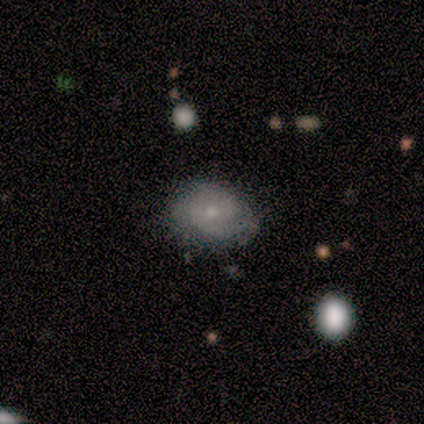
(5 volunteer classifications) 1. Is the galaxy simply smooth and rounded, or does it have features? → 80% smooth, 20% featured or disk, 0% star or artifact.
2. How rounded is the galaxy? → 50% round (tied), 50% in between (tied), 0% cigar-shaped.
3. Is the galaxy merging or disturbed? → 60% none, 40% minor disturbance, 0% major disturbance, 0% merger.